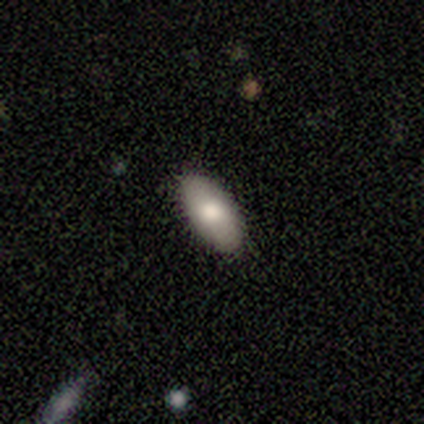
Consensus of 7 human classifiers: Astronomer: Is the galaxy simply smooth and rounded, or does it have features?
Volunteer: smooth — 86%.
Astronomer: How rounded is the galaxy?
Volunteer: in between — 83%.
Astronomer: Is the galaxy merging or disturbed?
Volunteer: none — 100%.